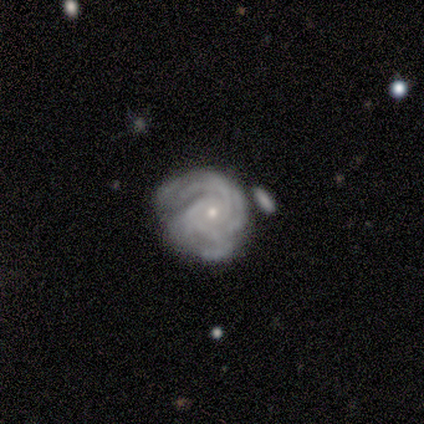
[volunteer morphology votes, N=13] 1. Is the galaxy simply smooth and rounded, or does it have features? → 92% featured or disk, 8% smooth, 0% star or artifact.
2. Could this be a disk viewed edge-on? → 100% no, 0% yes.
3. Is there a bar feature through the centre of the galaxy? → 92% no, 8% weak, 0% strong.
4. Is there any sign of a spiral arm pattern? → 100% yes, 0% no.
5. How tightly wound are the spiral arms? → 75% tight, 25% medium, 0% loose.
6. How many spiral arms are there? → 33% 3 (tied), 33% can't tell (tied), 17% 2, 8% 1, 8% more than 4, 0% 4.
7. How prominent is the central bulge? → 67% small, 17% moderate, 8% dominant, 8% large, 0% none.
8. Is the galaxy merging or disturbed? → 38% none, 31% minor disturbance, 23% major disturbance, 8% merger.